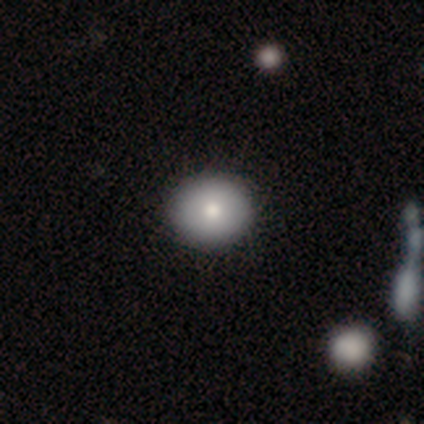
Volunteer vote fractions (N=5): A smooth galaxy with no disk features (80%) that is round (100%).

Vote fractions:
- Smooth or featured? smooth: 80% / featured or disk: 20% / star or artifact: 0%
- How rounded? round: 100% / in between: 0% / cigar-shaped: 0%
- Merging? none: 80% / merger: 20% / minor disturbance: 0% / major disturbance: 0%